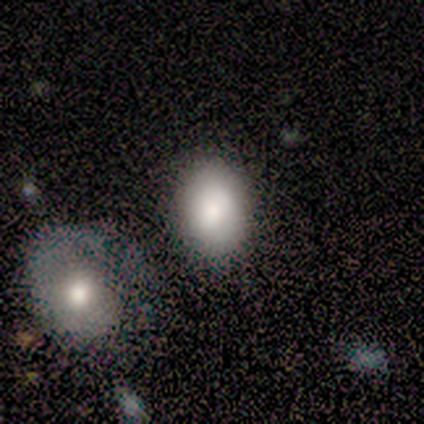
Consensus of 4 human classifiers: smooth 100%, featured or disk 0%, star or artifact 0%. Down the decision tree: how rounded — in between (75%); merging — none (75%).